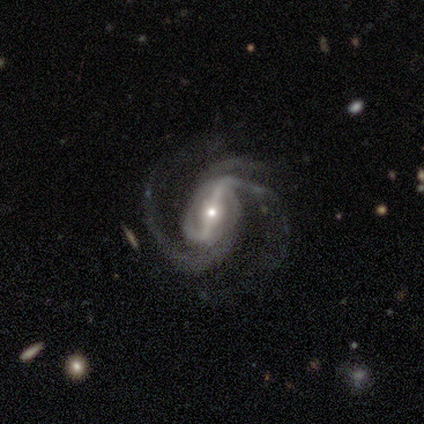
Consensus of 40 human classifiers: This is clearly a featured or disk galaxy (95%). It is clearly not viewed edge-on (95%). Bar: likely strong (78%). Spiral arm pattern: clearly yes (97%). Spiral arm count: likely 2 (66%). Spiral winding: likely medium (74%). Central bulge: possibly moderate (47%, tied with small). Merging: likely none (71%).